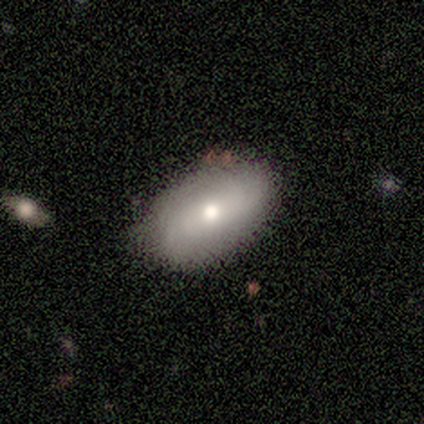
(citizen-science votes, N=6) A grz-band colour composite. It shows a smooth galaxy with no disk features (83%) that is in between round and cigar-shaped (80%). Merging: none (100%).